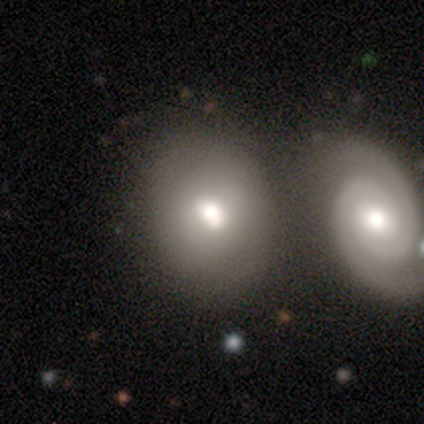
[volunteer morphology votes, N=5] Volunteers were most divided on "how rounded" (2-way tie): round: 50%, in between: 50%, cigar-shaped: 0%. More confident: smooth or featured — smooth (80%); merging — none (60%).